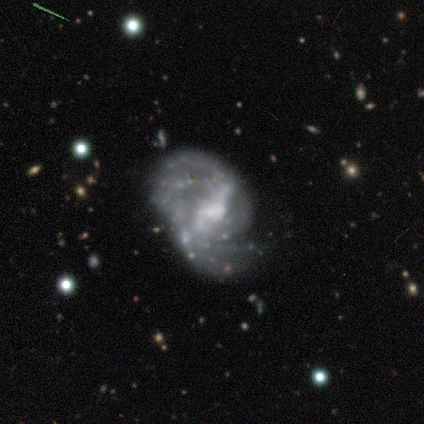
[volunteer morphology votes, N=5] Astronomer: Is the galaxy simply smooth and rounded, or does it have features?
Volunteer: featured or disk — 100%.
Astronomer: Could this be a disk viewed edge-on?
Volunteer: no — 100%.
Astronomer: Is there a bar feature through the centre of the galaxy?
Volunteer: weak — 60% (runner-up: strong, 40%).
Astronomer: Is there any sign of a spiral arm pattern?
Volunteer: yes — 100%.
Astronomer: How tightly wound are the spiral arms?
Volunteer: medium — 40%, tied with loose at 40%.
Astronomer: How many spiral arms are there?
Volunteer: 2 — 60%.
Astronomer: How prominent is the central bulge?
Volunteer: moderate — 40%, tied with small at 40%.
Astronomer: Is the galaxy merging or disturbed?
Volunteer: none — 80%.